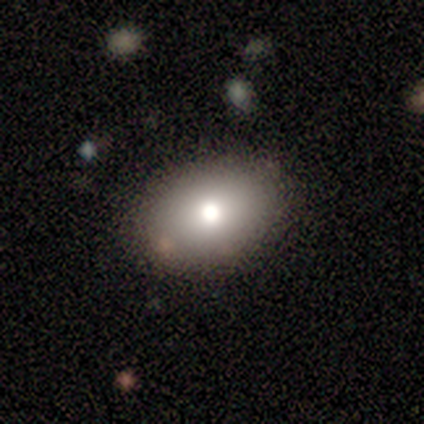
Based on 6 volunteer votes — This is clearly a smooth galaxy (83%). How rounded: clearly in between (80%). Merging: clearly none (100%).